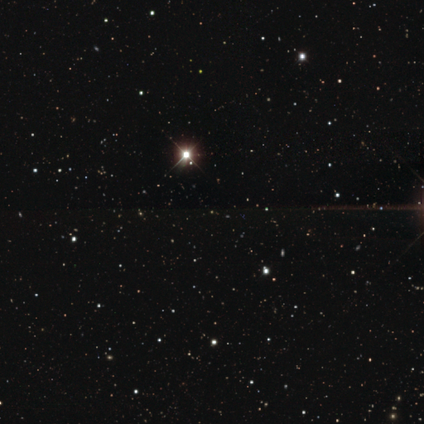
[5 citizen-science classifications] Morphology: type=star or artifact (100%).